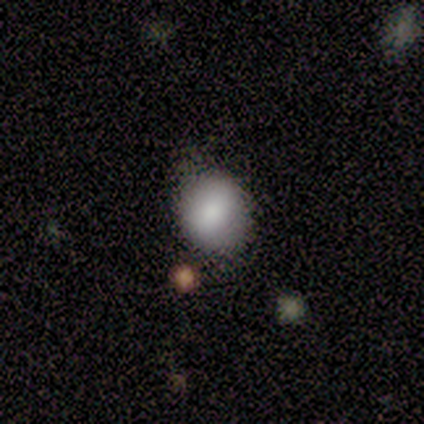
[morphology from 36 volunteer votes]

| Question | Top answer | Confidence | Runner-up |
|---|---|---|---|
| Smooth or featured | smooth | 89% | featured or disk (6%) |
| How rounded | round | 72% | in between (28%) |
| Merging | none | 65% | minor disturbance (29%) |